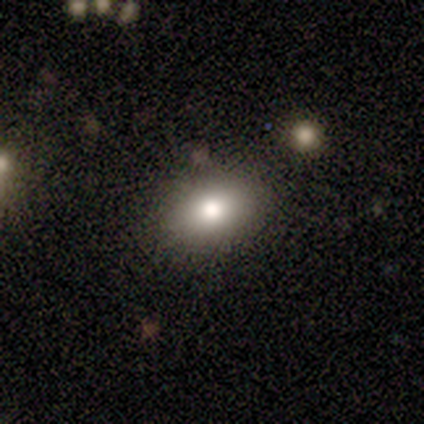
Smooth or featured?
  - smooth: 80% *
  - featured or disk: 20%
  - star or artifact: 0%
How rounded?
  - in between: 100% *
  - round: 0%
  - cigar-shaped: 0%
Merging?
  - none: 60% *
  - minor disturbance: 20%
  - major disturbance: 20%
  - merger: 0%